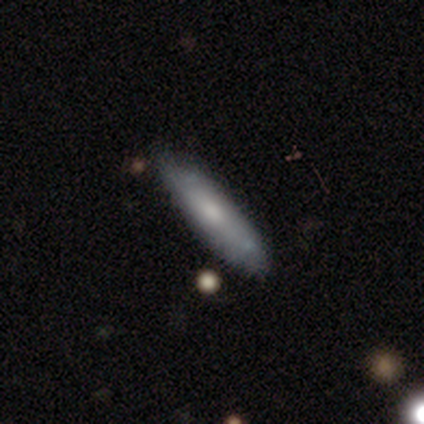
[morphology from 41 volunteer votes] Volunteers were most divided on "smooth or featured": smooth: 73%, featured or disk: 27%, star or artifact: 0%. More confident: merging — none (90%); how rounded — cigar-shaped (77%).